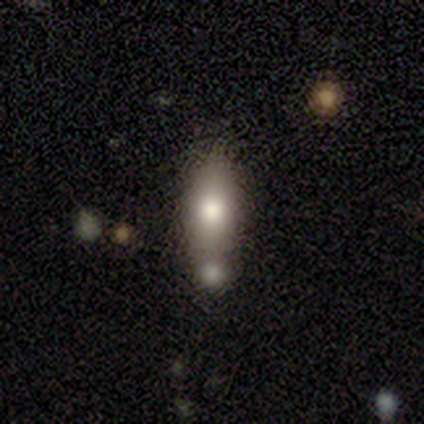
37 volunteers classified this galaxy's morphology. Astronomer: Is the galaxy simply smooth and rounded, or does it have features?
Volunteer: smooth — 65%.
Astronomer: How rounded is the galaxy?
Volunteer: in between — 79%.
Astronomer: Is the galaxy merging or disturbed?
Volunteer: none — 46% (runner-up: merger, 43%).